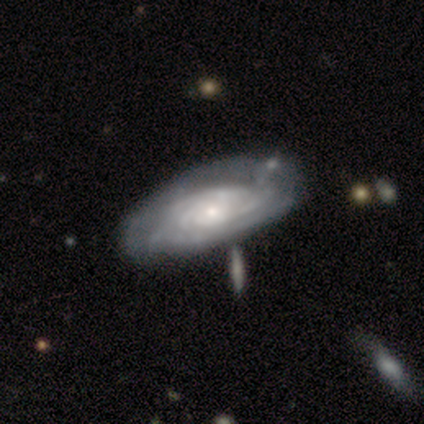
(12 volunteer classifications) A featured or disk galaxy (92%) with no bar (90%), tight (100%) spiral arms (90%) and a small central bulge (90%).

Vote fractions:
- Smooth or featured? featured or disk: 92% / smooth: 8% / star or artifact: 0%
- Edge-on disk? no: 91% / yes: 9%
- Bar? no: 90% / weak: 10% / strong: 0%
- Spiral arms? yes: 90% / no: 10%
- Spiral winding? tight: 100% / medium: 0% / loose: 0%
- Spiral arm count? can't tell: 67% / 3: 11% / 4: 11% / more than 4: 11% / 1: 0% / 2: 0%
- Bulge size? small: 90% / moderate: 10% / dominant: 0% / large: 0% / none: 0%
- Merging? none: 58% / minor disturbance: 33% / merger: 8% / major disturbance: 0%